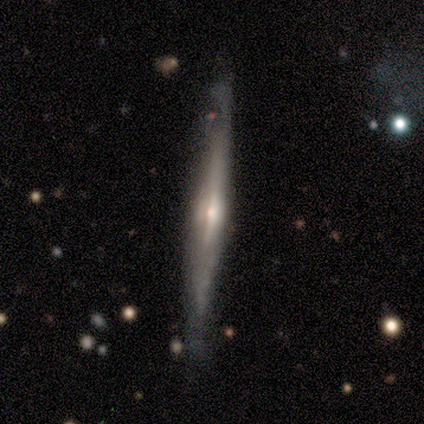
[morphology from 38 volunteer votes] Smooth or featured?
  - featured or disk: 76% *
  - smooth: 24%
  - star or artifact: 0%
Edge-on disk?
  - yes: 97% *
  - no: 3%
Edge-on bulge?
  - rounded: 75% *
  - none: 21%
  - boxy: 4%
Merging?
  - none: 84% *
  - minor disturbance: 16%
  - major disturbance: 0%
  - merger: 0%